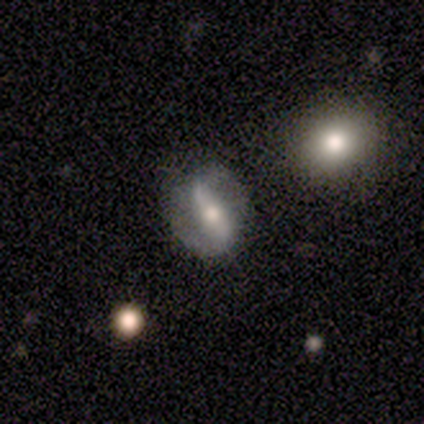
Morphology: type=featured or disk (65%); edge-on=no (98%); bar=strong (52%); spiral arms=yes (82%); winding=loose (56%); arm count=2 (95%); bulge=moderate (58%); merging=none (71%).